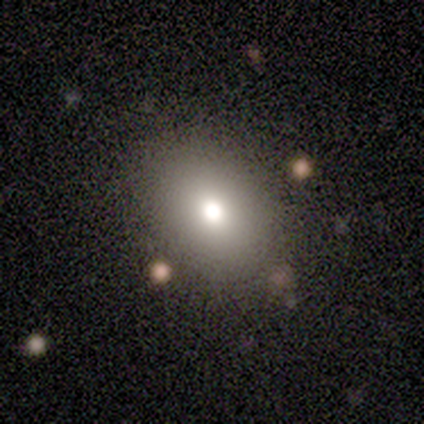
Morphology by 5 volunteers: Q: Smooth or featured?
A: smooth (60%); runner-up: featured or disk (20%)
Q: How rounded?
A: in between (100%)
Q: Merging?
A: none (100%)